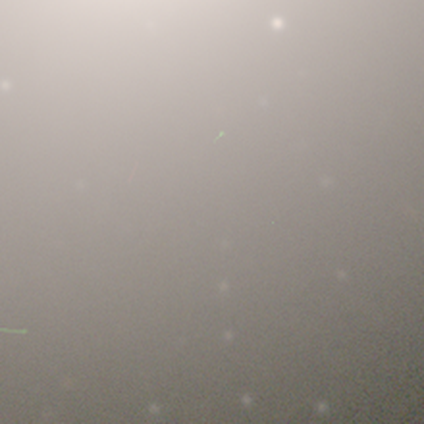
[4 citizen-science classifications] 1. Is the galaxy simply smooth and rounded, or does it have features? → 100% star or artifact, 0% smooth, 0% featured or disk.